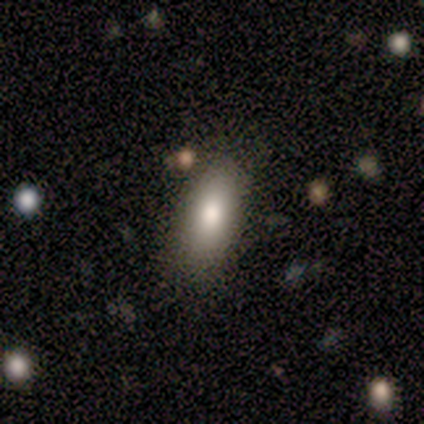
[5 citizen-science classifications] A smooth galaxy with no disk features (100%) that is in between round and cigar-shaped (60%). Merging: none (80%).